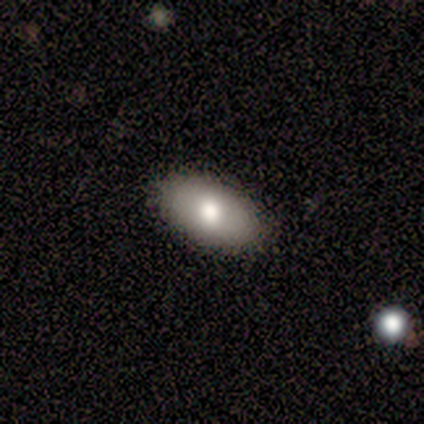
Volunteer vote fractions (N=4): Smooth or featured? smooth (75%)
How rounded? in between (100%)
Merging? none (75%)